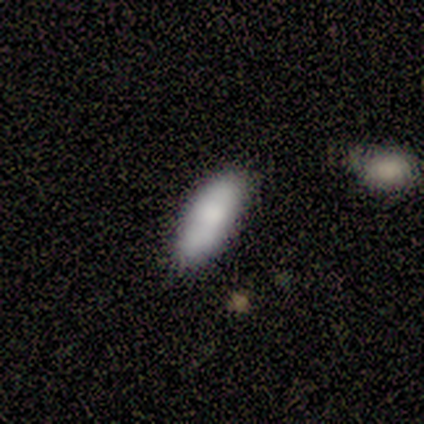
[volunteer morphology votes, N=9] Smooth or featured: smooth — 89% (featured or disk — 11%)
How rounded: in between — 88% (cigar-shaped — 12%)
Merging: none — 67% (minor disturbance — 22%)